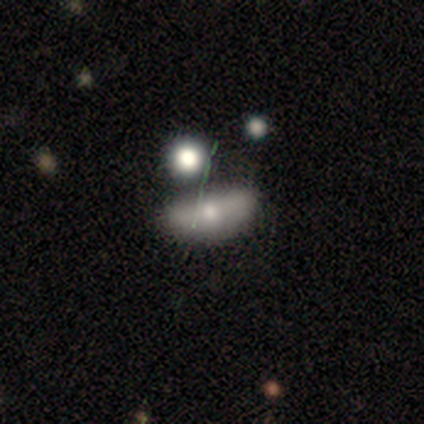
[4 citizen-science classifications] Q: Smooth or featured?
A: smooth (50%); runner-up: featured or disk (25%)
Q: How rounded?
A: in between (100%)
Q: Merging?
A: merger (67%); runner-up: major disturbance (33%)